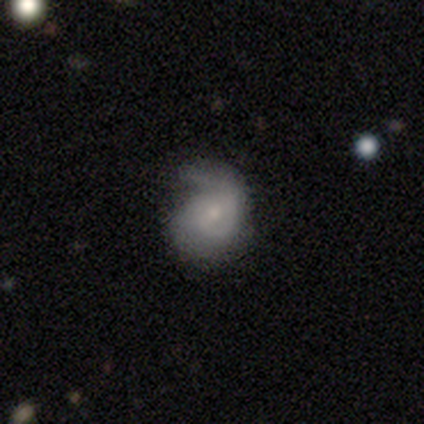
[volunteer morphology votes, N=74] A featured or disk galaxy (68%) with no bar (64%), 1 (60%) medium (53%) spiral arms (86%) and a small central bulge (64%). Merging: none (43%).